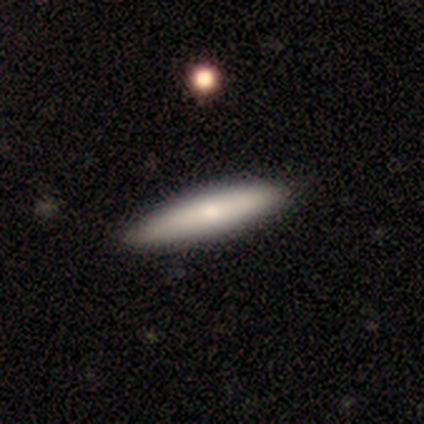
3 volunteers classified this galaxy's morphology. Q: Smooth or featured?
A: smooth (100%)
Q: How rounded?
A: cigar-shaped (100%)
Q: Merging?
A: none (100%)